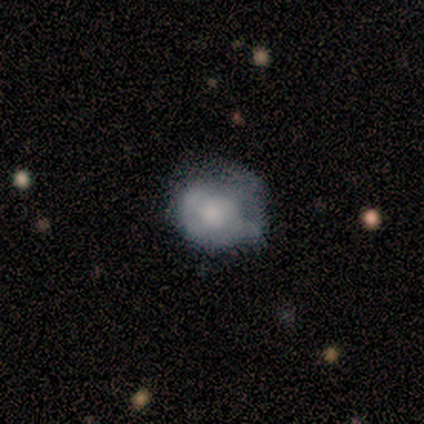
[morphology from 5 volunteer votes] smooth_or_featured: smooth (p=0.40) [tied with: featured or disk p=0.40]
how_rounded: round (p=0.50) [tied with: in between p=0.50]
merging: none (p=0.50) [alt: minor disturbance p=0.25]